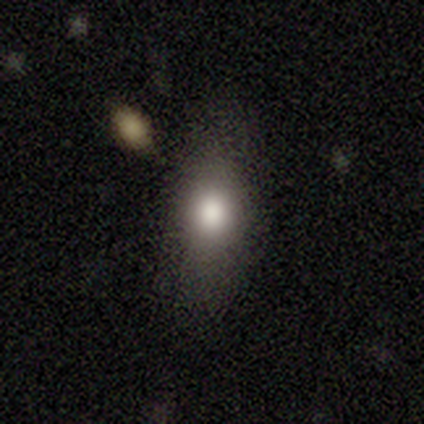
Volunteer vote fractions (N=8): smooth_or_featured: smooth (p=0.88) [alt: star or artifact p=0.12]
how_rounded: round (p=0.57) [alt: in between p=0.29]
merging: none (p=0.86) [alt: minor disturbance p=0.14]